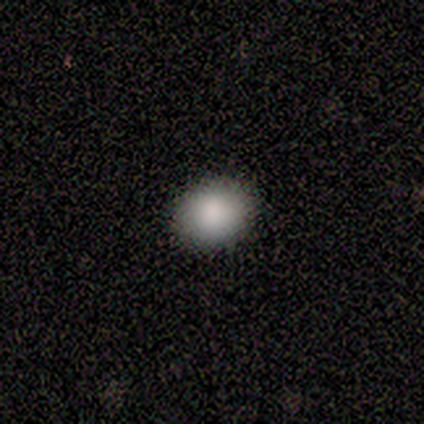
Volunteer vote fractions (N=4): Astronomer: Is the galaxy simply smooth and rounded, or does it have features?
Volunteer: smooth — 75%.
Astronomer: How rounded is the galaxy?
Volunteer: in between — 100%.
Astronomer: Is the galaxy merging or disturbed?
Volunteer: none — 100%.